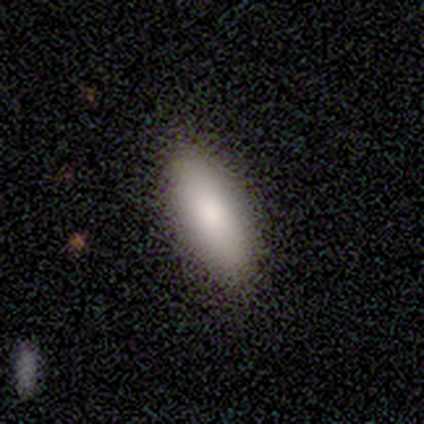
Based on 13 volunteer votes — Overall: smooth (100%). How rounded: in between (100%). Merging: none (85%).